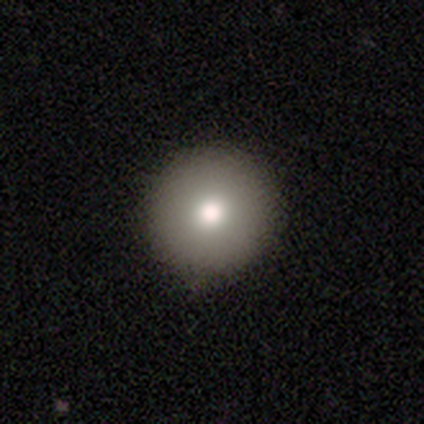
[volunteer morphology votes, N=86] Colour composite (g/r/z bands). It shows a smooth galaxy with no disk features (88%) that is round (95%). Merging: none (89%).